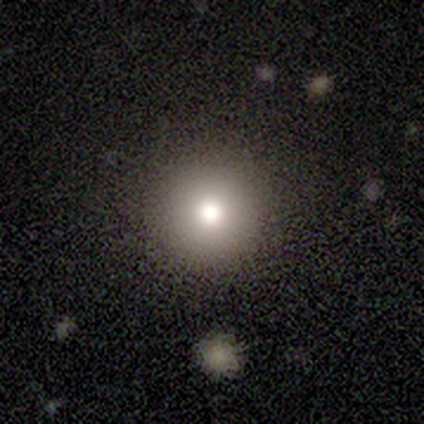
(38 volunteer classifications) Smooth or featured?
  - smooth: 76% *
  - star or artifact: 13%
  - featured or disk: 11%
How rounded?
  - round: 100% *
  - in between: 0%
  - cigar-shaped: 0%
Merging?
  - none: 94% *
  - minor disturbance: 3%
  - major disturbance: 3%
  - merger: 0%